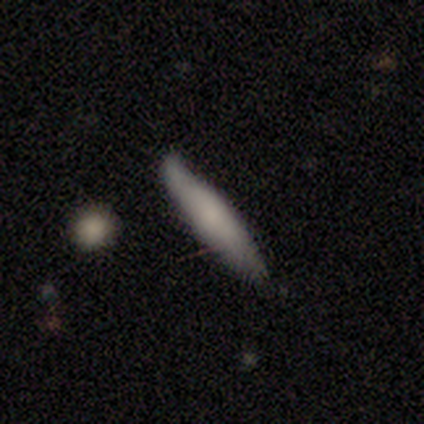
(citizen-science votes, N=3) This is likely a smooth galaxy (67%). How rounded: clearly cigar-shaped (100%). Merging: clearly none (100%).